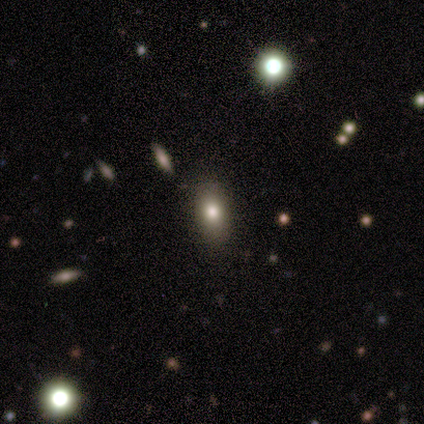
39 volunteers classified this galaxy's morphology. Smooth or featured? 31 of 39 (79%) said smooth. How rounded? 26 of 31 (84%) said in between. Merging? 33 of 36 (92%) said none.